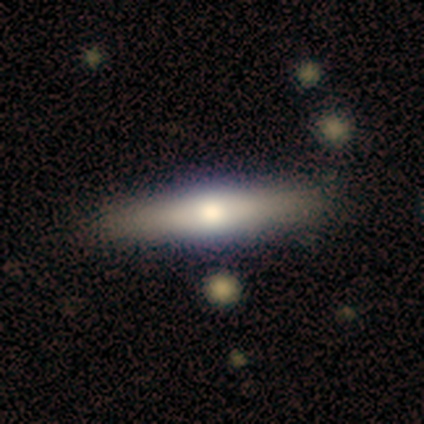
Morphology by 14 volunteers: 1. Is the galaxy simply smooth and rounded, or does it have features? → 57% featured or disk, 43% smooth, 0% star or artifact.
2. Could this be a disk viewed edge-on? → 100% yes, 0% no.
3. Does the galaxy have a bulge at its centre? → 75% rounded, 12% boxy, 12% none.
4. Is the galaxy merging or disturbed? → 86% none, 14% minor disturbance, 0% major disturbance, 0% merger.